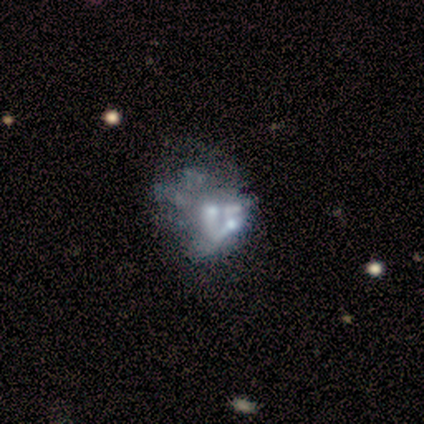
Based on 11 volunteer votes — Smooth or featured? featured or disk (82%)
Edge-on disk? no (100%)
Bar? no (100%)
Spiral arms? no (89%)
Bulge size? none (44%)
Merging? none (45%)